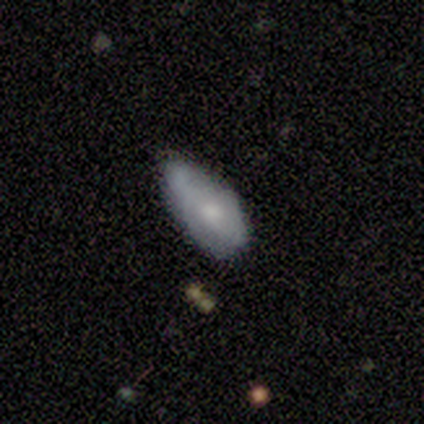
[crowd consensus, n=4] smooth_or_featured: smooth (p=1.00)
how_rounded: in between (p=1.00)
merging: minor disturbance (p=0.75) [alt: none p=0.25]